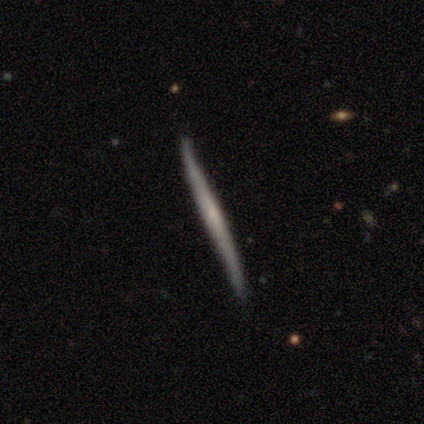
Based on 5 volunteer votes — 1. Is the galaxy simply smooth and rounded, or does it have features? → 80% featured or disk, 20% smooth, 0% star or artifact.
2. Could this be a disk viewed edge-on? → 100% yes, 0% no.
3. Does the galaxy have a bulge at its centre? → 100% none, 0% boxy, 0% rounded.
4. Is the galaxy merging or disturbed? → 100% none, 0% minor disturbance, 0% major disturbance, 0% merger.